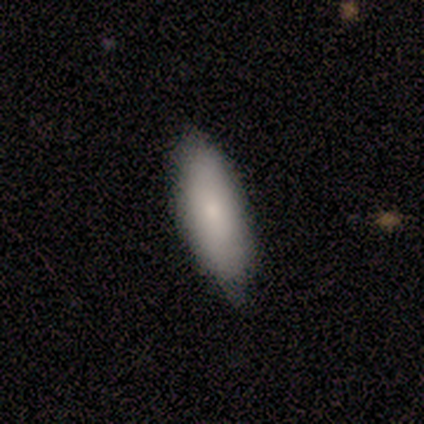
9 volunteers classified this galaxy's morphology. Smooth or featured? 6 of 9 (67%) said smooth. How rounded? 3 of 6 (50%, tied with cigar-shaped) said in between. Merging? 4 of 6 (67%) said minor disturbance.